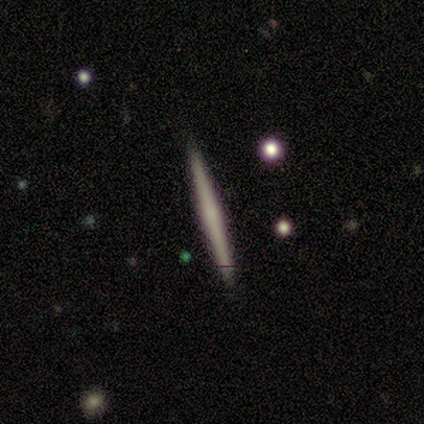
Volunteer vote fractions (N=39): A featured or disk galaxy (64%) viewed edge-on (100%) with no central bulge (64%).

Vote fractions:
- Smooth or featured? featured or disk: 64% / smooth: 33% / star or artifact: 3%
- Edge-on disk? yes: 100% / no: 0%
- Edge-on bulge? none: 64% / rounded: 32% / boxy: 4%
- Merging? none: 97% / major disturbance: 3% / minor disturbance: 0% / merger: 0%